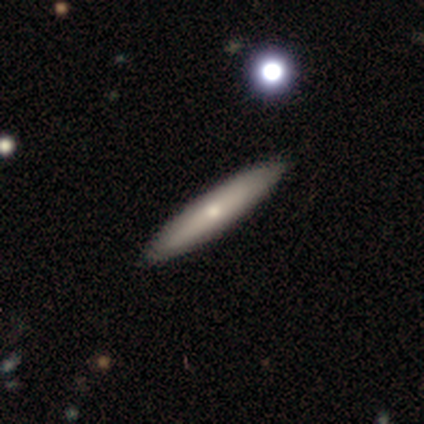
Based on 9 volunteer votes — Volunteers were most divided on "smooth or featured": smooth: 78%, featured or disk: 22%, star or artifact: 0%. More confident: how rounded — cigar-shaped (100%); merging — none (89%).